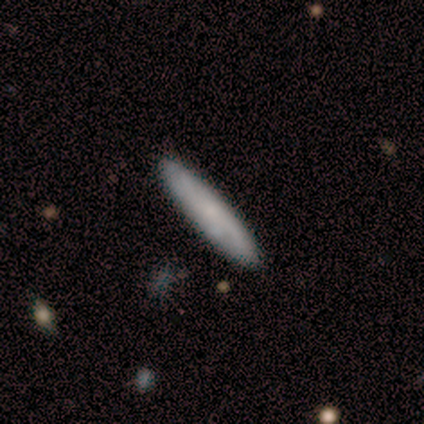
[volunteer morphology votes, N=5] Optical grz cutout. It shows a smooth galaxy with no disk features (60%) that is cigar-shaped (100%). Merging: none (100%).